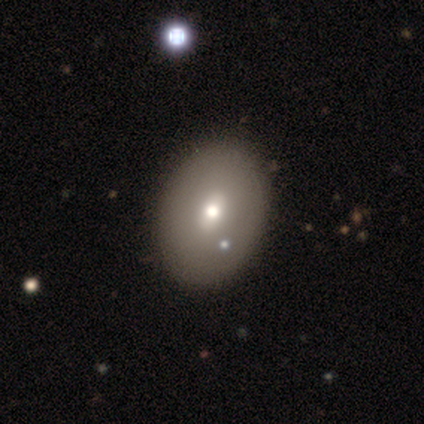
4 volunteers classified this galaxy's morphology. type=smooth (50%); roundness=round (50%, tied with in between); merging=none (67%).